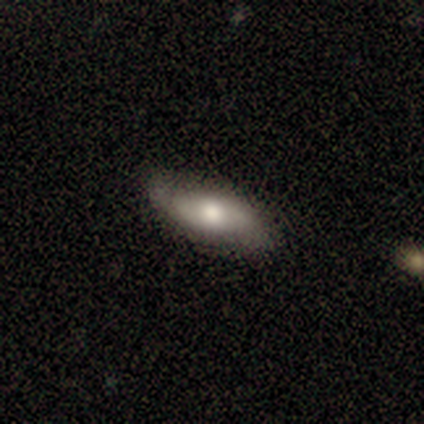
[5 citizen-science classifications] A smooth galaxy with no disk features (60%) that is in between round and cigar-shaped (100%). Merging: none (100%).